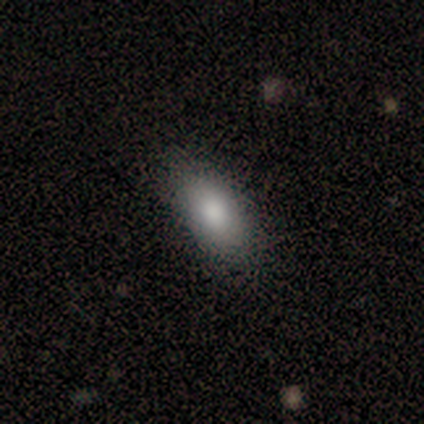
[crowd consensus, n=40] This is clearly a smooth galaxy (85%). How rounded: clearly in between (85%). Merging: clearly none (89%).